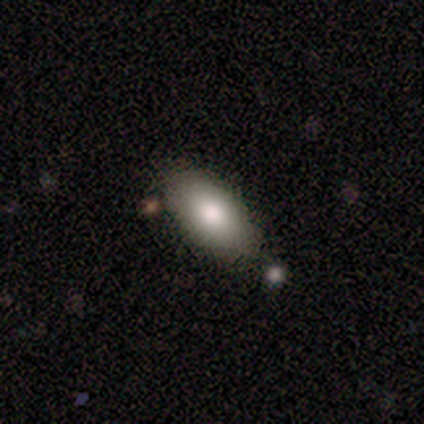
Smooth or featured? smooth (90%)
How rounded? in between (91%)
Merging? none (90%)